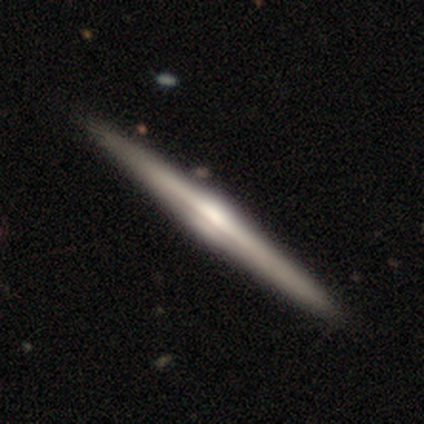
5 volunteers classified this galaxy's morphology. Smooth or featured?
  - featured or disk: 80% *
  - smooth: 20%
  - star or artifact: 0%
Edge-on disk?
  - yes: 75% *
  - no: 25%
Edge-on bulge?
  - rounded: 100% *
  - boxy: 0%
  - none: 0%
Merging?
  - none: 80% *
  - minor disturbance: 20%
  - major disturbance: 0%
  - merger: 0%